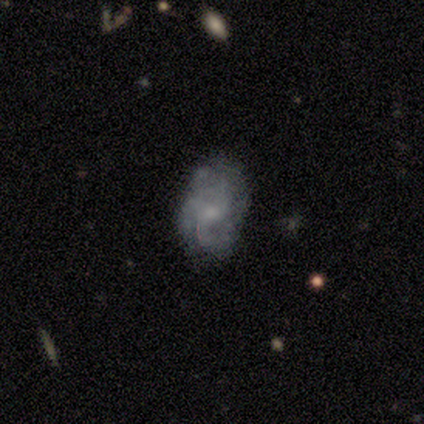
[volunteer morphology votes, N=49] Volunteers were most divided on "bulge size": small: 48%, moderate: 42%, none: 9%, dominant: 0%, large: 0%. Remaining: edge-on disk — no (100%); spiral arms — yes (82%); bar — no (76%); smooth or featured — featured or disk (67%); merging — none (52%); spiral arm count — 3 (48%); spiral winding — medium (41%).